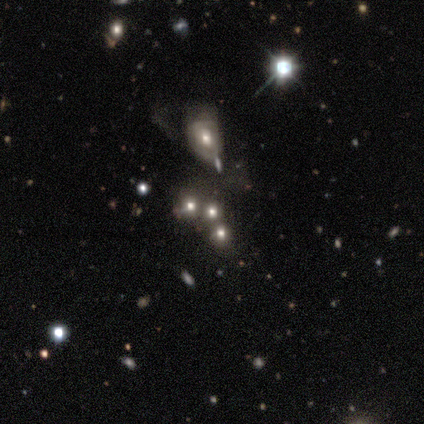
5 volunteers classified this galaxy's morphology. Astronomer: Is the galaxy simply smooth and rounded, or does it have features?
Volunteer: smooth — 60%.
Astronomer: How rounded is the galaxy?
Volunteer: round — 67%.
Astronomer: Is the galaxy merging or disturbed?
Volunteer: none — 25%, tied with minor disturbance, major disturbance and merger at 25%.